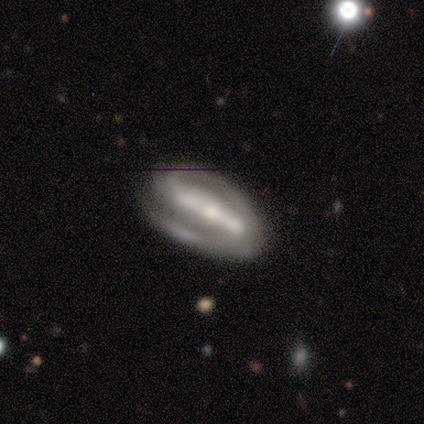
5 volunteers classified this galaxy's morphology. Smooth or featured? 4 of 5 (80%) said featured or disk. Edge-on disk? 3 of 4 (75%) said no. Bar? 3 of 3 (100%) said strong. Spiral arms? 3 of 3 (100%) said yes. Spiral winding? 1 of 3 (33%, tied with medium and loose) said tight. Spiral arm count? 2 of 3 (67%) said 2. Bulge size? 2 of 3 (67%) said moderate. Merging? 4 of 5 (80%) said none.